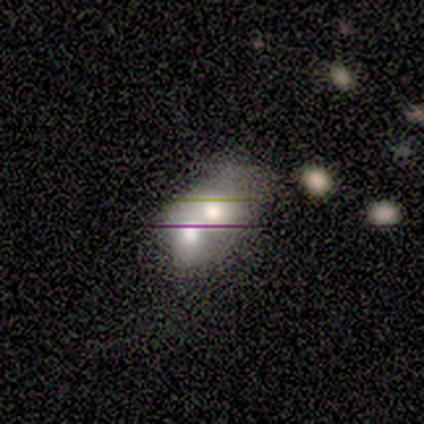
Q: Smooth or featured?
A: smooth (50%); tied with: featured or disk (50%)
Q: How rounded?
A: round (50%); tied with: in between (50%)
Q: Merging?
A: major disturbance (50%); tied with: merger (50%)